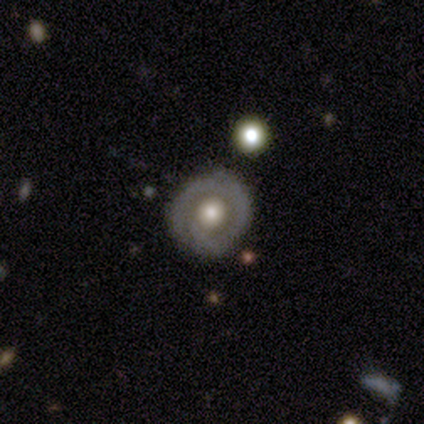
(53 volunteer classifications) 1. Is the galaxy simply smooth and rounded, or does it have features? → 75% featured or disk, 23% smooth, 2% star or artifact.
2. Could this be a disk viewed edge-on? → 98% no, 2% yes.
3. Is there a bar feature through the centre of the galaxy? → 85% no, 15% weak, 0% strong.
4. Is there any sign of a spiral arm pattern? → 56% yes, 44% no.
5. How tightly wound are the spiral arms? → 68% tight, 23% medium, 9% loose.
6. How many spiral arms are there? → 50% 1, 27% 2, 14% 3, 9% can't tell, 0% 4, 0% more than 4.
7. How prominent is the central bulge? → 51% moderate, 36% large, 10% small, 3% dominant, 0% none.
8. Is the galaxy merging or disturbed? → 79% none, 10% minor disturbance, 6% major disturbance, 6% merger.